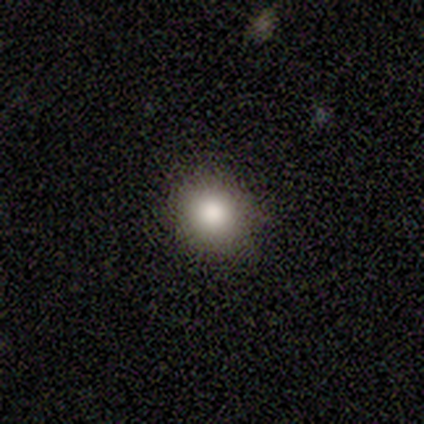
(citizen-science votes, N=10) Smooth or featured? smooth (100%)
How rounded? round (100%)
Merging? none (100%)